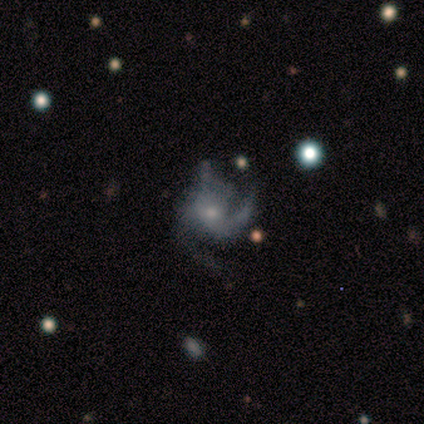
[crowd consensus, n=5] Smooth or featured: featured or disk — 80% (star or artifact — 20%)
Edge-on disk: no — 100%
Bar: no — 75% (weak — 25%)
Spiral arms: yes — 100%
Spiral winding: medium — 100%
Spiral arm count: 3 — 100%
Bulge size: small — 100%
Merging: minor disturbance — 50% (none — 25%)